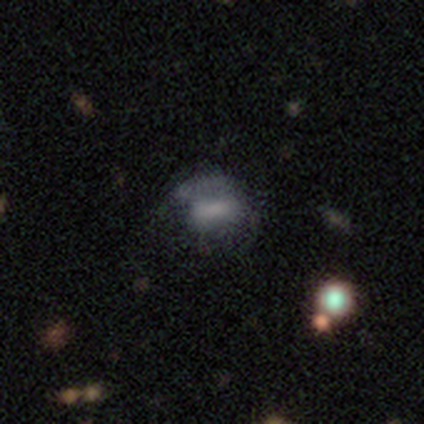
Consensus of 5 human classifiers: Overall: smooth (60%; featured or disk 40%). How rounded: in between (100%). Merging: major disturbance (60%; none 20%).